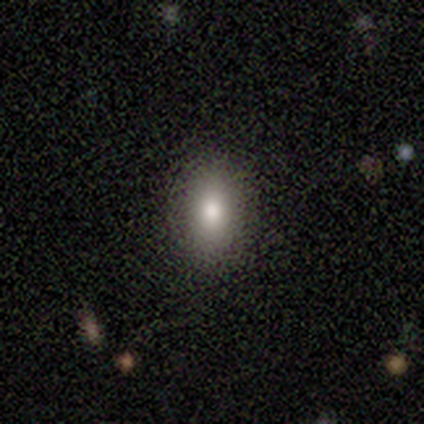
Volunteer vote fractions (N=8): smooth-or-featured: smooth: 75% | featured or disk: 12% | star or artifact: 12%
  how-rounded: in between: 67% | round: 33% | cigar-shaped: 0%
  merging: none: 86% | minor disturbance: 14% | major disturbance: 0% | merger: 0%